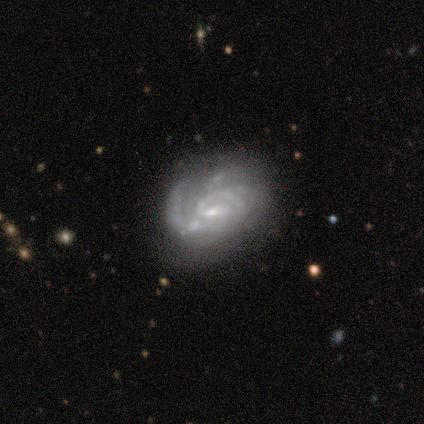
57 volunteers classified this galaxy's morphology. A featured or disk galaxy (88%) with a weak bar (61%), 2 (38%) medium (47%) spiral arms (96%) and a small central bulge (78%).

Vote fractions:
- Smooth or featured? featured or disk: 88% / smooth: 7% / star or artifact: 5%
- Edge-on disk? no: 98% / yes: 2%
- Bar? weak: 61% / no: 35% / strong: 4%
- Spiral arms? yes: 96% / no: 4%
- Spiral winding? medium: 47% / tight: 40% / loose: 13%
- Spiral arm count? 2: 38% / can't tell: 26% / 3: 15% / 1: 11% / 4: 11% / more than 4: 0%
- Bulge size? small: 78% / moderate: 14% / none: 8% / dominant: 0% / large: 0%
- Merging? none: 54% / minor disturbance: 26% / major disturbance: 13% / merger: 7%